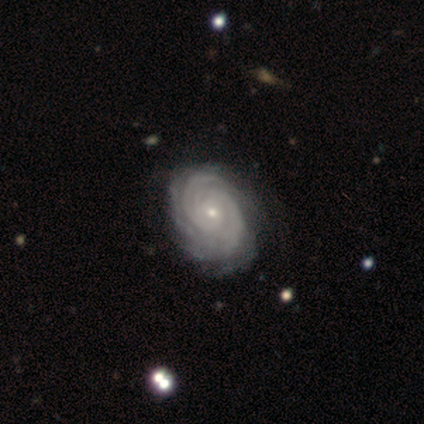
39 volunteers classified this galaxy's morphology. Q: Smooth or featured?
A: featured or disk (97%); runner-up: star or artifact (3%)
Q: Edge-on disk?
A: no (100%)
Q: Bar?
A: no (76%); runner-up: weak (18%)
Q: Spiral arms?
A: yes (97%); runner-up: no (3%)
Q: Spiral winding?
A: tight (78%); runner-up: medium (22%)
Q: Spiral arm count?
A: 2 (30%); runner-up: can't tell (24%)
Q: Bulge size?
A: small (82%); runner-up: moderate (18%)
Q: Merging?
A: none (50%); runner-up: minor disturbance (5%)